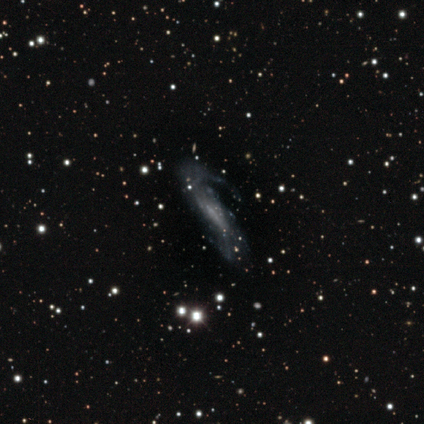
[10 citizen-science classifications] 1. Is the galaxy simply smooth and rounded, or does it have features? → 70% featured or disk, 20% star or artifact, 10% smooth.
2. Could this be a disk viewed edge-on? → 71% no, 29% yes.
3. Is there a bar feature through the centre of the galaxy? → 60% weak, 40% no, 0% strong.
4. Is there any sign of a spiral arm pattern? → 100% yes, 0% no.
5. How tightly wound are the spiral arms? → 60% medium, 40% loose, 0% tight.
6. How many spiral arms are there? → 80% 2, 20% can't tell, 0% 1, 0% 3, 0% 4, 0% more than 4.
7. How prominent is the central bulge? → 60% small, 40% none, 0% dominant, 0% large, 0% moderate.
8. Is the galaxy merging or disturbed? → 50% major disturbance, 25% none, 25% minor disturbance, 0% merger.